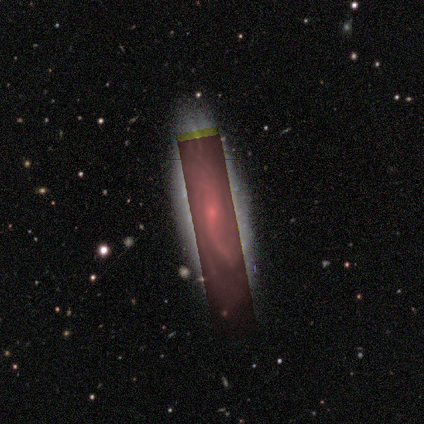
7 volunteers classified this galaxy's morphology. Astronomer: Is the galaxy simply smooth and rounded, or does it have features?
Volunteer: featured or disk — 57%.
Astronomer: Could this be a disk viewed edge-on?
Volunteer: no — 100%.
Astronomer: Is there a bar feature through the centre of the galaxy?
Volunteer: weak — 50%, tied with no at 50%.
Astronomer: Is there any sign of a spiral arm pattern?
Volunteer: yes — 75%.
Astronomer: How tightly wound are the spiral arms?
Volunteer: loose — 67%.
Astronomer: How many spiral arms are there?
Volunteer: can't tell — 67%.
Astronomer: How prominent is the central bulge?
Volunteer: small — 100%.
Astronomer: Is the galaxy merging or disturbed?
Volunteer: none — 80%.